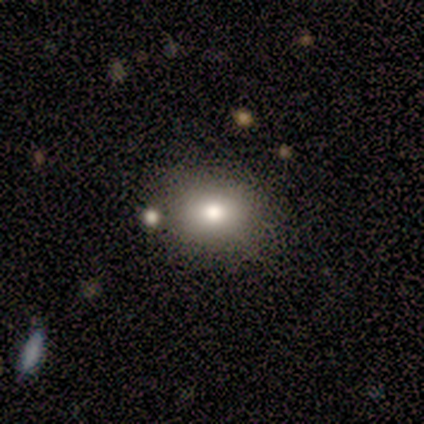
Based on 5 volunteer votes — smooth_or_featured: smooth (p=0.80) [alt: featured or disk p=0.20]
how_rounded: in between (p=0.75) [alt: round p=0.25]
merging: none (p=0.80) [alt: minor disturbance p=0.20]